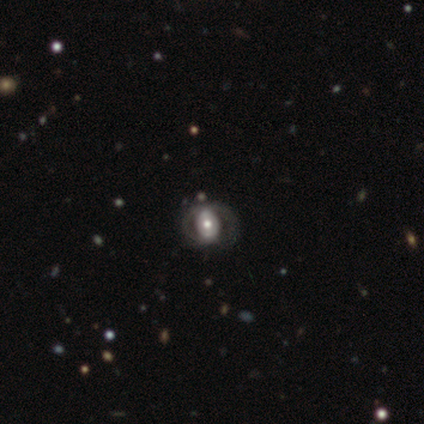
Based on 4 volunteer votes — Morphology: type=smooth (50%, tied with star or artifact); roundness=round (50%, tied with in between); merging=none (50%, tied with major disturbance).